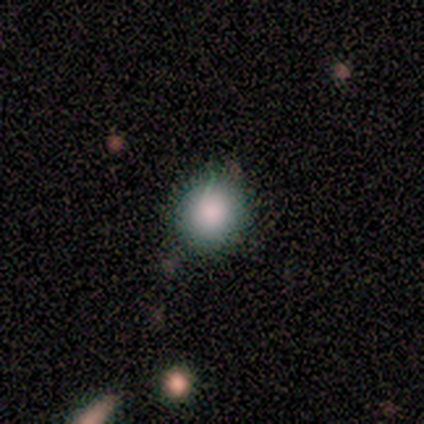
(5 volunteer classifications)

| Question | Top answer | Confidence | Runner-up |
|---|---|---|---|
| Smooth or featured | smooth | 100% | — |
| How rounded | round | 60% | in between (40%) |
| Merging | none | 80% | minor disturbance (20%) |